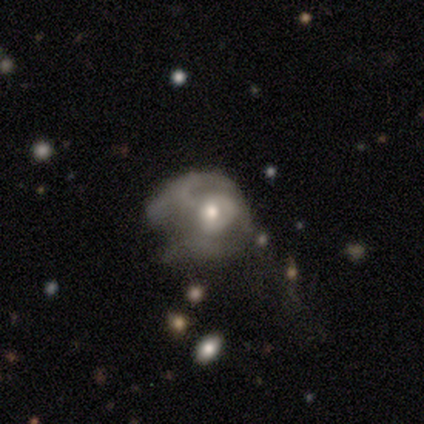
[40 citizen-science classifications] Overall: featured or disk (72%). Edge-on disk: no (100%). Bar: no (69%; weak 31%). Spiral arms: no (52%; yes 48%). Bulge size: moderate (66%; small 28%). Merging: major disturbance (57%; none 20%).